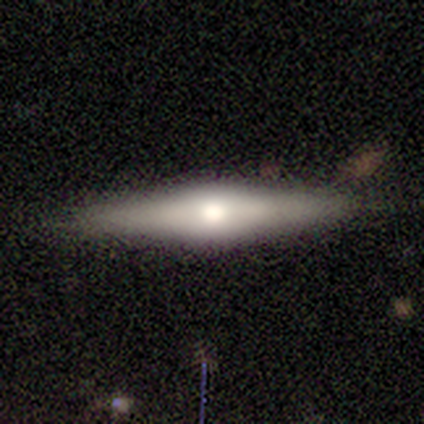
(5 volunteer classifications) Q: Smooth or featured?
A: smooth (60%); runner-up: featured or disk (40%)
Q: How rounded?
A: cigar-shaped (100%)
Q: Merging?
A: none (100%)